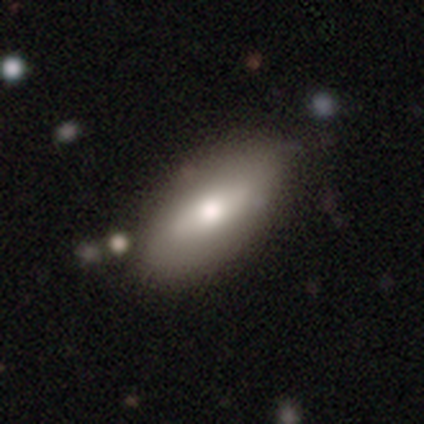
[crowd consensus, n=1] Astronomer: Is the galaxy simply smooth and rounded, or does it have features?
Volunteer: smooth — 100%.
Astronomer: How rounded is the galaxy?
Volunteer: in between — 100%.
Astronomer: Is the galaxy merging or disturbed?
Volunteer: none — 100%.